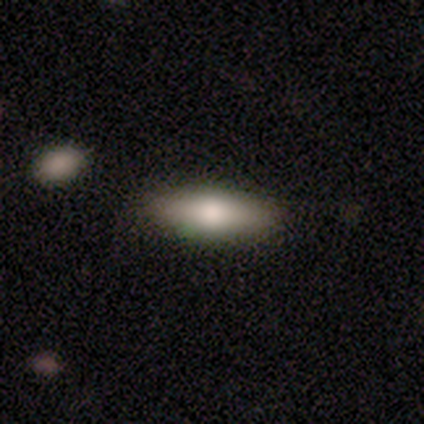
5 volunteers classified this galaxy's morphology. smooth-or-featured: smooth: 100% | featured or disk: 0% | star or artifact: 0%
  how-rounded: cigar-shaped: 80% | in between: 20% | round: 0%
  merging: none: 80% | minor disturbance: 20% | major disturbance: 0% | merger: 0%